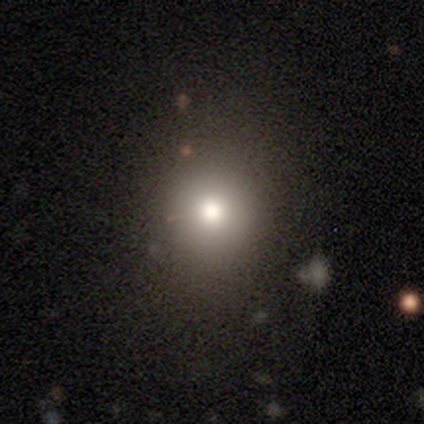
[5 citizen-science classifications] A smooth galaxy with no disk features (60%) that is round (67%).

Vote fractions:
- Smooth or featured? smooth: 60% / star or artifact: 40% / featured or disk: 0%
- How rounded? round: 67% / in between: 33% / cigar-shaped: 0%
- Merging? none: 67% / minor disturbance: 33% / major disturbance: 0% / merger: 0%